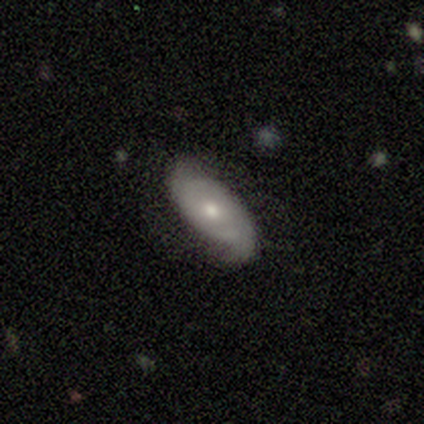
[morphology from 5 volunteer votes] type=featured or disk (60%); edge-on=no (100%); bar=no (67%); spiral arms=yes (100%); winding=medium (67%); arm count=2 (100%); bulge=small (67%); merging=none (100%).